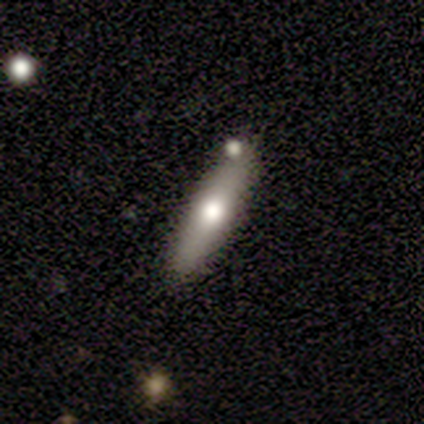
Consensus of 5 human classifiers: smooth_or_featured: featured or disk (p=0.60) [alt: smooth p=0.40]
disk_edge_on: yes (p=0.67) [alt: no p=0.33]
edge_on_bulge: rounded (p=1.00)
merging: none (p=1.00)